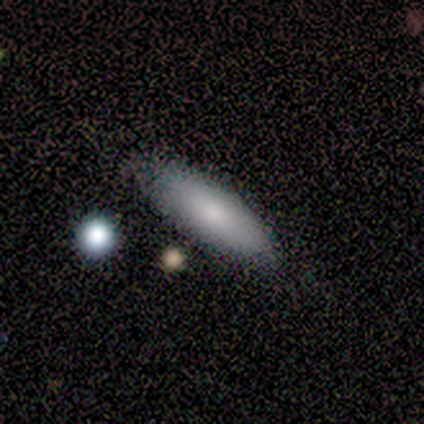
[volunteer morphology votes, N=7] A smooth galaxy with no disk features (86%) that is in between round and cigar-shaped (50%, tied with cigar-shaped).

Vote fractions:
- Smooth or featured? smooth: 86% / featured or disk: 14% / star or artifact: 0%
- How rounded? in between: 50% (tied) / cigar-shaped: 50% (tied) / round: 0%
- Merging? none: 86% / minor disturbance: 14% / major disturbance: 0% / merger: 0%